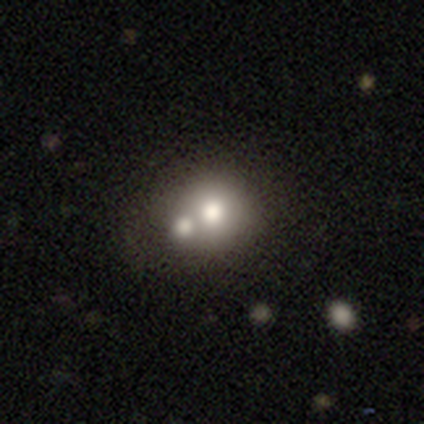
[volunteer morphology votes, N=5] smooth_or_featured: smooth (p=0.60) [alt: featured or disk p=0.40]
how_rounded: round (p=1.00)
merging: merger (p=0.80) [alt: none p=0.20]